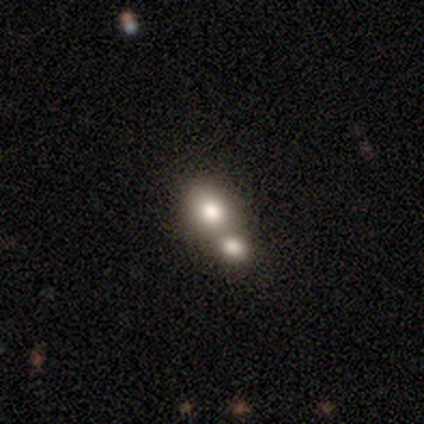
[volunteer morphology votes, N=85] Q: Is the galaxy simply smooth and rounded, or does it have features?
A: smooth — 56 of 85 (66%).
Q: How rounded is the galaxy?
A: round — 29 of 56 (52%).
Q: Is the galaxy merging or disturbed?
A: merger — 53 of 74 (72%).